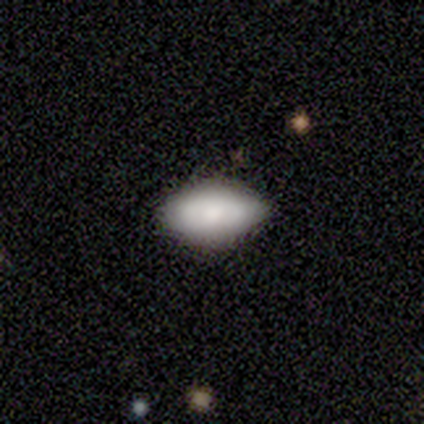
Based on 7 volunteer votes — smooth_or_featured: smooth (p=0.43) [tied with: featured or disk p=0.43]
how_rounded: in between (p=1.00)
merging: none (p=0.67) [alt: minor disturbance p=0.33]